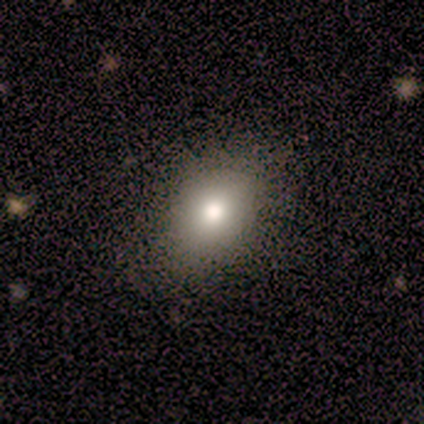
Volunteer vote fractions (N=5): Smooth or featured: smooth — 80% (star or artifact — 20%)
How rounded: in between — 75% (round — 25%)
Merging: none — 100%